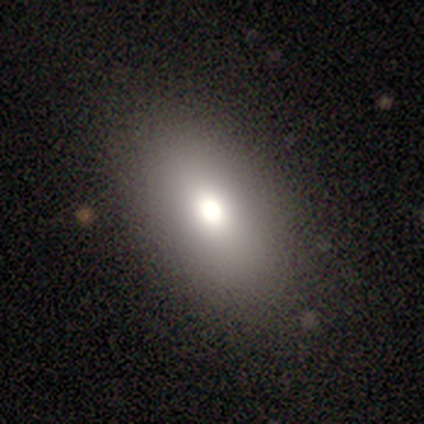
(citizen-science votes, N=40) A smooth galaxy with no disk features (82%) that is in between round and cigar-shaped (79%).

Vote fractions:
- Smooth or featured? smooth: 82% / featured or disk: 10% / star or artifact: 8%
- How rounded? in between: 79% / round: 21% / cigar-shaped: 0%
- Merging? none: 95% / minor disturbance: 3% / major disturbance: 3% / merger: 0%